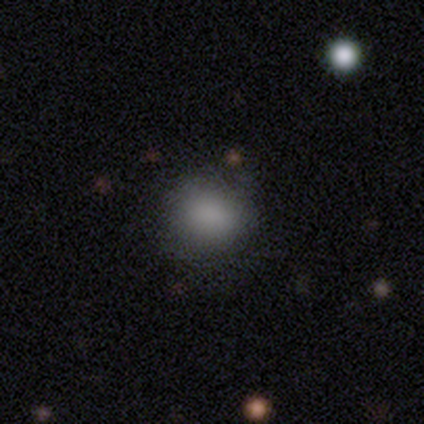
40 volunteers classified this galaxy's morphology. Smooth or featured?
  - smooth: 95% *
  - featured or disk: 2%
  - star or artifact: 2%
How rounded?
  - round: 68% *
  - in between: 32%
  - cigar-shaped: 0%
Merging?
  - none: 69% *
  - minor disturbance: 8%
  - major disturbance: 0%
  - merger: 0%